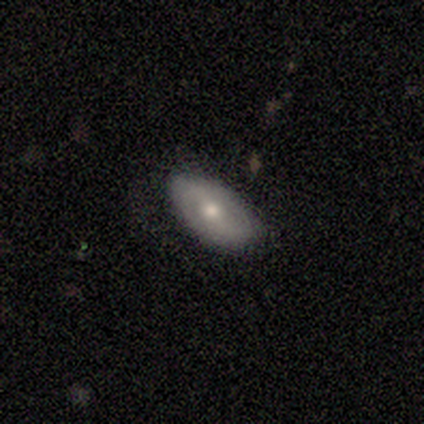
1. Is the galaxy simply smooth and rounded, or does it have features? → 80% smooth, 20% featured or disk, 0% star or artifact.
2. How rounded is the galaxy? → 100% in between, 0% round, 0% cigar-shaped.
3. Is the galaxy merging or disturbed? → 60% none, 40% minor disturbance, 0% major disturbance, 0% merger.